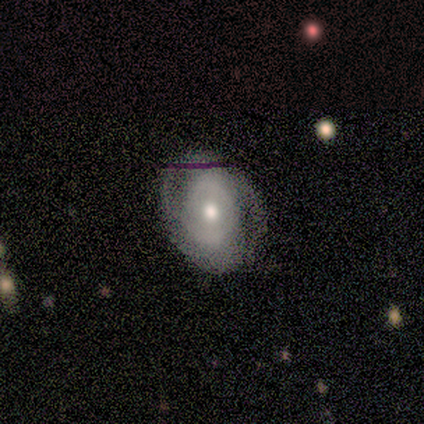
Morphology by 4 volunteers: A featured or disk galaxy (50%) with no bar (100%), 3 (100%) tight (50%, tied with medium) spiral arms (100%) and a moderate central bulge (100%). Merging: none (100%).